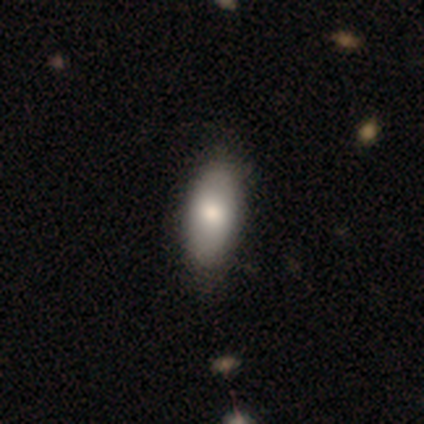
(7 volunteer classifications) Q: Smooth or featured?
A: smooth (71%); runner-up: featured or disk (14%)
Q: How rounded?
A: in between (100%)
Q: Merging?
A: none (50%); runner-up: minor disturbance (33%)